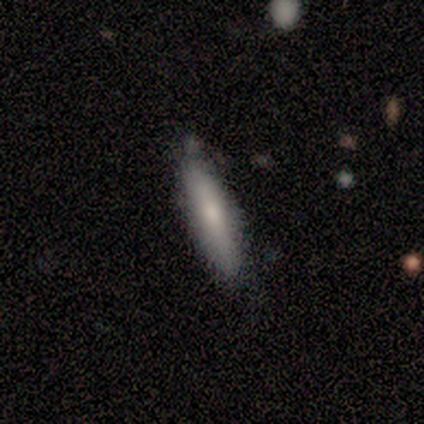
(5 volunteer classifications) smooth-or-featured: smooth: 80% | featured or disk: 20% | star or artifact: 0%
  how-rounded: in between: 50% (tied) | cigar-shaped: 50% (tied) | round: 0%
  merging: none: 80% | minor disturbance: 20% | major disturbance: 0% | merger: 0%